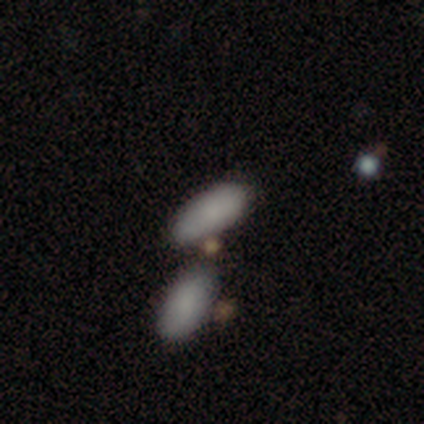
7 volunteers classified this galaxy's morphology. Smooth or featured? smooth (86%)
How rounded? in between (100%)
Merging? none (71%)